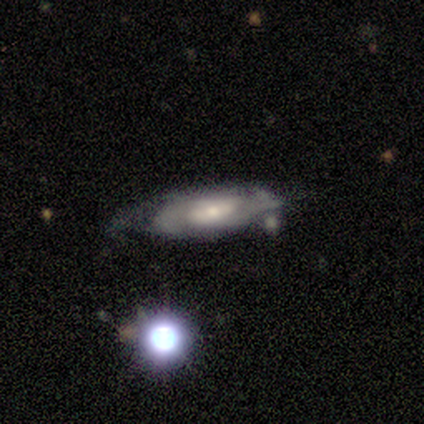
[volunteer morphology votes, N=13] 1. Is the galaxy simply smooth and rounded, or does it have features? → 77% featured or disk, 23% smooth, 0% star or artifact.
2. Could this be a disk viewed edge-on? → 100% no, 0% yes.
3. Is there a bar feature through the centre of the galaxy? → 60% weak, 30% no, 10% strong.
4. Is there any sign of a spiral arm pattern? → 80% yes, 20% no.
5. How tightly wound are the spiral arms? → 50% medium, 38% tight, 12% loose.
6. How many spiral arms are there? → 75% 2, 12% 3, 12% can't tell, 0% 1, 0% 4, 0% more than 4.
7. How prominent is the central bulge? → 50% moderate (tied), 50% small (tied), 0% dominant, 0% large, 0% none.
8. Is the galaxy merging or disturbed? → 46% none, 31% minor disturbance, 23% major disturbance, 0% merger.